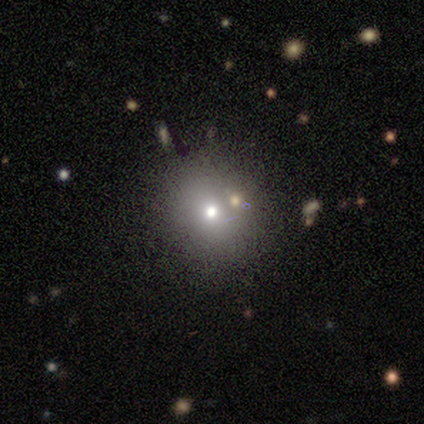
Q: Smooth or featured?
A: smooth (60%); runner-up: featured or disk (20%)
Q: How rounded?
A: round (67%); runner-up: in between (33%)
Q: Merging?
A: none (75%); runner-up: minor disturbance (25%)